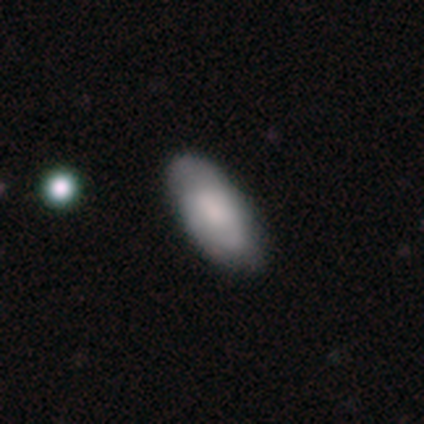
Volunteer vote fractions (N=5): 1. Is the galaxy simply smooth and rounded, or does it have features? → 80% smooth, 20% star or artifact, 0% featured or disk.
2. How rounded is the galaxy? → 100% in between, 0% round, 0% cigar-shaped.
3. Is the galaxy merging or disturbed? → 75% none, 25% minor disturbance, 0% major disturbance, 0% merger.